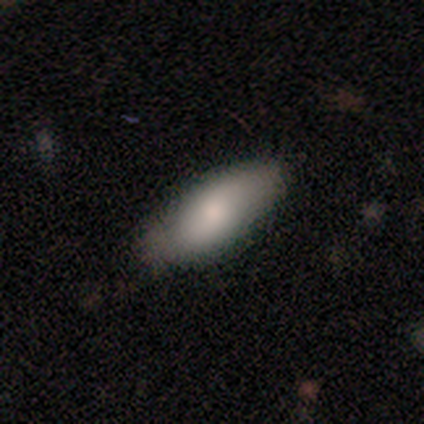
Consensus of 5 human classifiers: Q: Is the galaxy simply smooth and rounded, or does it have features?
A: smooth — 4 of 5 (80%).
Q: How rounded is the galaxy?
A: in between — 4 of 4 (100%).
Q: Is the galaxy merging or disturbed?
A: none — 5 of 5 (100%).